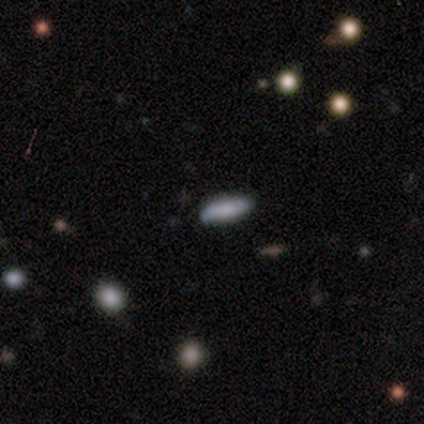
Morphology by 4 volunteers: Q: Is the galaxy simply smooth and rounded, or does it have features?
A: smooth — 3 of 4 (75%).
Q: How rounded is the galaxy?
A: in between — 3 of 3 (100%).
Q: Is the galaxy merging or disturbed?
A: none — 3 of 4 (75%).